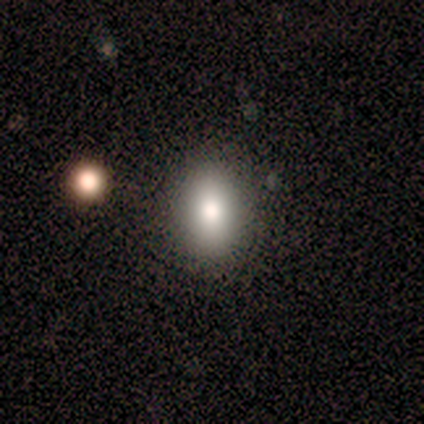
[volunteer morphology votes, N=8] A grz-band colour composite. It shows a smooth galaxy with no disk features (62%) that is in between round and cigar-shaped (100%). Merging: none (100%).